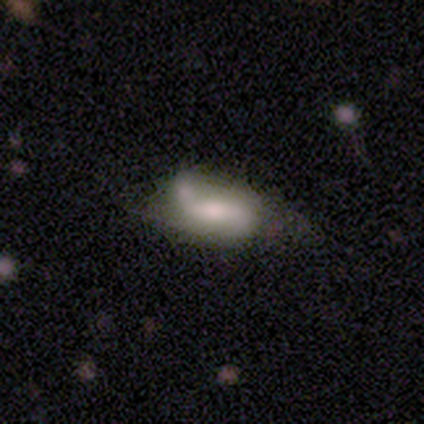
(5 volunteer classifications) Volunteers were most divided on "bar" (2-way tie): weak: 40%, no: 40%, strong: 20%; "bulge size" (2-way tie): moderate: 40%, none: 40%, large: 20%, dominant: 0%, small: 0%. More confident: smooth or featured — featured or disk (100%); edge-on disk — no (100%); spiral arm count — 2 (100%); spiral arms — yes (80%); merging — none (80%); spiral winding — loose (75%).